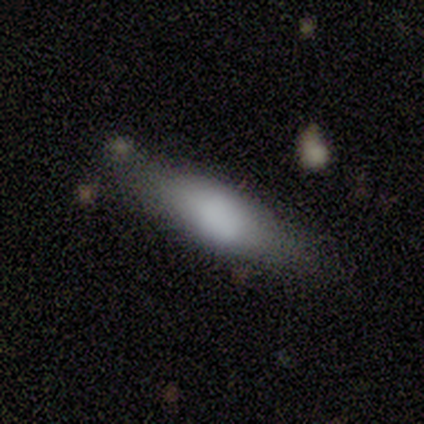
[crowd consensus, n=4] smooth_or_featured: smooth (p=0.75) [alt: featured or disk p=0.25]
how_rounded: in between (p=0.67) [alt: cigar-shaped p=0.33]
merging: none (p=1.00)